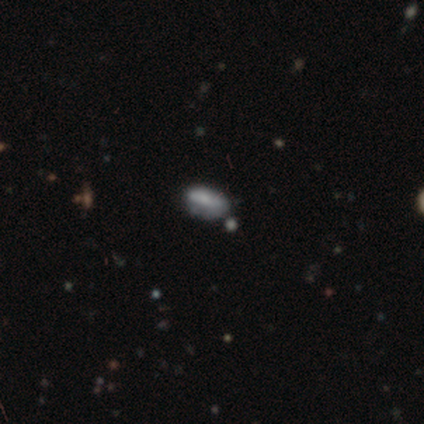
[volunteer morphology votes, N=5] This appears to be a smooth galaxy with no disk features (60%) that is in between round and cigar-shaped (100%). Merging: none (67%).